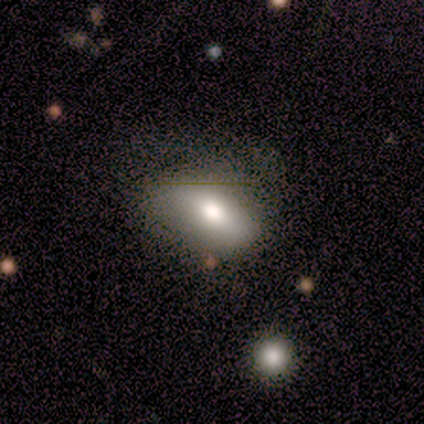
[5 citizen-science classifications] A smooth galaxy with no disk features (80%) that is in between round and cigar-shaped (75%).

Vote fractions:
- Smooth or featured? smooth: 80% / featured or disk: 20% / star or artifact: 0%
- How rounded? in between: 75% / cigar-shaped: 25% / round: 0%
- Merging? none: 80% / major disturbance: 20% / minor disturbance: 0% / merger: 0%